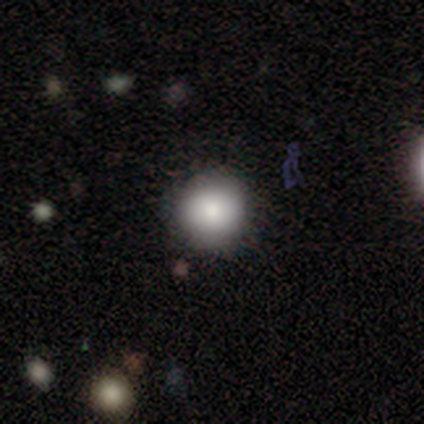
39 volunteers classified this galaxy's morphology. Volunteers were most divided on "smooth or featured": smooth: 79%, star or artifact: 13%, featured or disk: 8%. More confident: how rounded — round (97%); merging — none (88%).